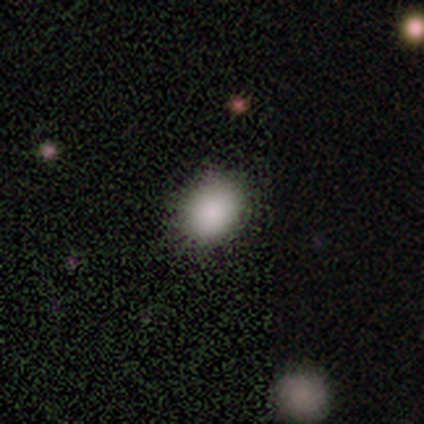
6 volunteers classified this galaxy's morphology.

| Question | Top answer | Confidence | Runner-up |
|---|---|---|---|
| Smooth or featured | smooth | 83% | star or artifact (17%) |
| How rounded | round | 60% | in between (40%) |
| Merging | none | 100% | — |